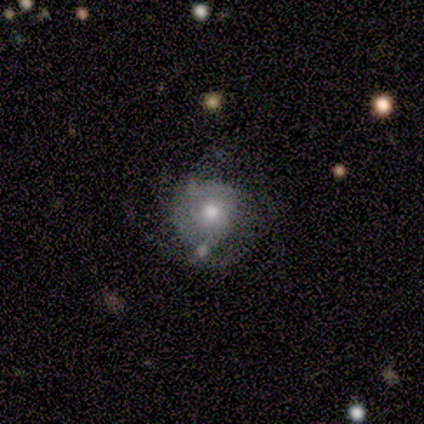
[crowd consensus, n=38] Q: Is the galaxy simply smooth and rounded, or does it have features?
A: featured or disk — 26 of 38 (68%).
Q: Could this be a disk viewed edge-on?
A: no — 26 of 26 (100%).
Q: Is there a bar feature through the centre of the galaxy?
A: no — 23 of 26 (88%).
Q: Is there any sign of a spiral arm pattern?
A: yes — 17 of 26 (65%).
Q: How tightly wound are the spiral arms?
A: tight — 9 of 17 (53%).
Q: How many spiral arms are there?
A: can't tell — 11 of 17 (65%).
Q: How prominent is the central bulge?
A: moderate — 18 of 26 (69%).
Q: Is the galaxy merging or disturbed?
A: none — 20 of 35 (57%).